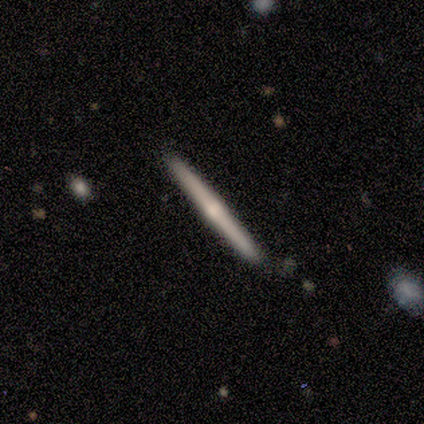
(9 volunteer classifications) featured or disk 67%, smooth 22%, star or artifact 11%. Down the decision tree: edge-on disk — yes (100%); edge-on bulge — none (50%, tied with rounded); merging — none (88%).